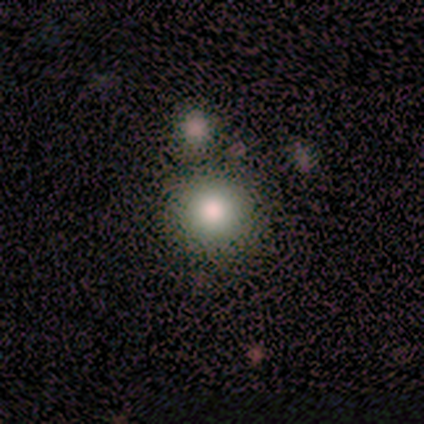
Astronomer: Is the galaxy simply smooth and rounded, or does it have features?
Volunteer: smooth — 75%.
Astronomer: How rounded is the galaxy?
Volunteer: round — 100%.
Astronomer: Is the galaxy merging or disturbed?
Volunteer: none — 100%.